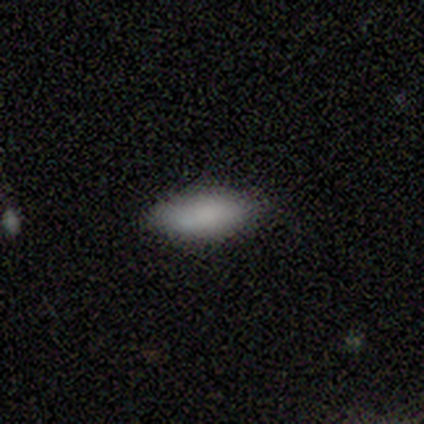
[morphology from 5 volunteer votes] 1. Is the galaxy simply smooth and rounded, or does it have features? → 100% smooth, 0% featured or disk, 0% star or artifact.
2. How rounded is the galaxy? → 80% in between, 20% cigar-shaped, 0% round.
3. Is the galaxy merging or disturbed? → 100% none, 0% minor disturbance, 0% major disturbance, 0% merger.